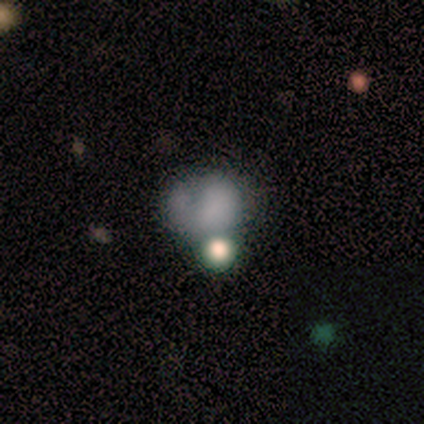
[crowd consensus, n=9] Smooth or featured? smooth (44%)
How rounded? round (50%, tied with in between)
Merging? minor disturbance (50%)